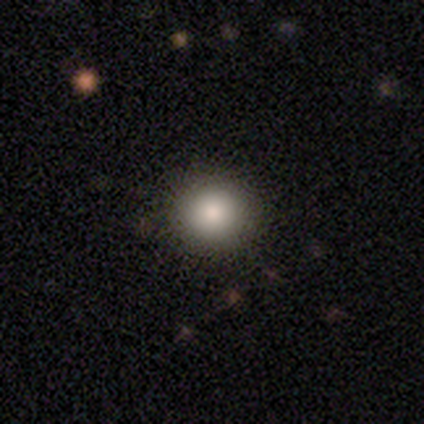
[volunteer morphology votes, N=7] smooth-or-featured: smooth: 100% | featured or disk: 0% | star or artifact: 0%
  how-rounded: round: 100% | in between: 0% | cigar-shaped: 0%
  merging: none: 100% | minor disturbance: 0% | major disturbance: 0% | merger: 0%